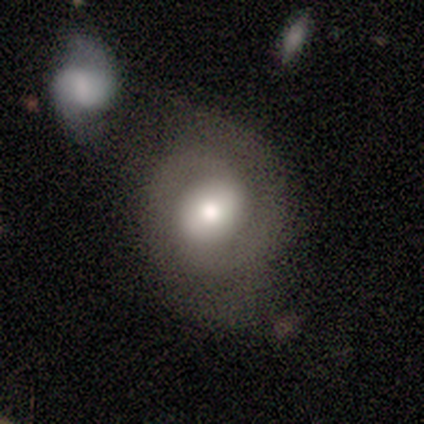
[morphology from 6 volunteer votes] This appears to be a featured or disk galaxy (67%) with no bar (75%), 2 (75%) medium (75%) spiral arms (100%) and a large central bulge (50%, tied with moderate). Merging: none (60%).